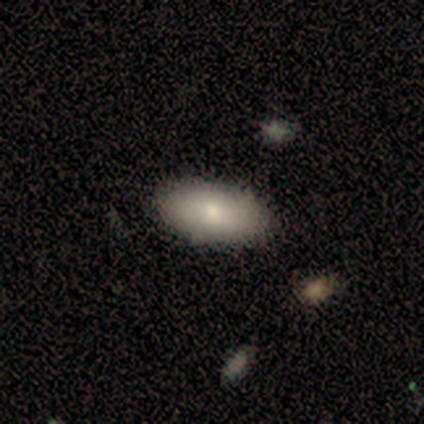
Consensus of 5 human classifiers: smooth 100%, featured or disk 0%, star or artifact 0%. Down the decision tree: how rounded — in between (100%); merging — none (80%).